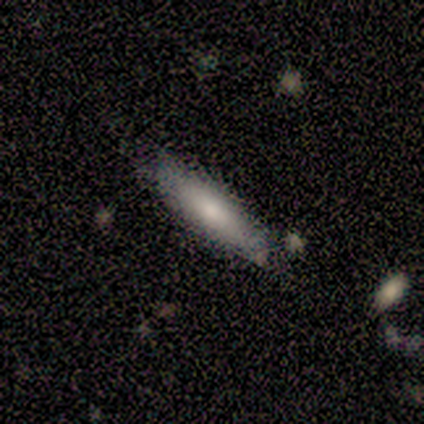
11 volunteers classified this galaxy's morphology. This appears to be a smooth galaxy with no disk features (73%) that is cigar-shaped (62%). Merging: none (89%).